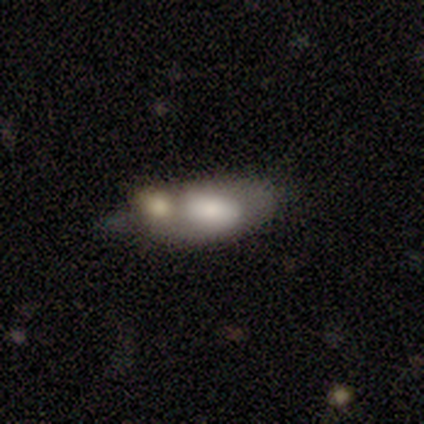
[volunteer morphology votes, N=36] Overall: smooth (56%; featured or disk 39%). How rounded: in between (85%). Merging: merger (59%; minor disturbance 21%).